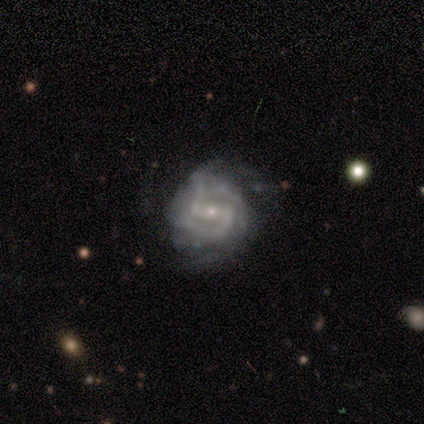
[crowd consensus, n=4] This appears to be a featured or disk galaxy (100%) with a strong bar (75%), 2 (100%) medium (100%) spiral arms (100%) and a small central bulge (75%). Merging: none (75%).